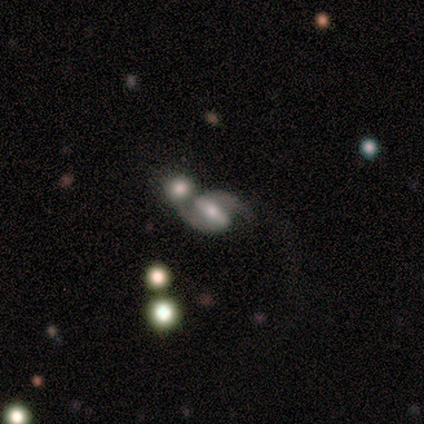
Q: Smooth or featured?
A: featured or disk (80%); runner-up: star or artifact (20%)
Q: Edge-on disk?
A: no (100%)
Q: Bar?
A: strong (75%); runner-up: weak (25%)
Q: Spiral arms?
A: yes (100%)
Q: Spiral winding?
A: loose (75%); runner-up: medium (25%)
Q: Spiral arm count?
A: 2 (100%)
Q: Bulge size?
A: moderate (50%); tied with: small (50%)
Q: Merging?
A: merger (75%); runner-up: none (25%)